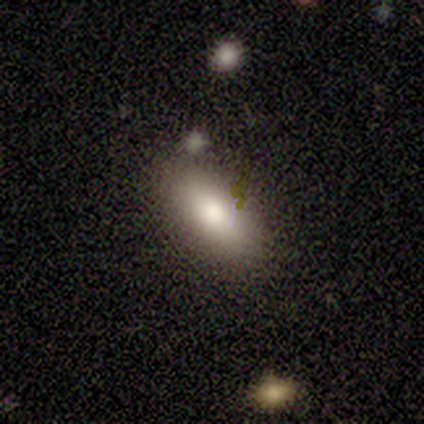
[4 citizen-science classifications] Smooth or featured: smooth — 100%
How rounded: in between — 50% (tied with cigar-shaped — 50%)
Merging: none — 75% (minor disturbance — 25%)